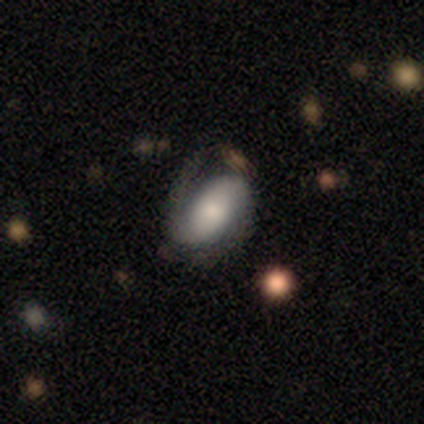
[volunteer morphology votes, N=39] featured or disk 69%, smooth 26%, star or artifact 5%. Down the decision tree: edge-on disk — no (96%); bar — no (46%); spiral arms — yes (88%); spiral arm count — 2 (70%); spiral winding — medium (48%); bulge size — moderate (27%, tied with small); merging — none (49%).